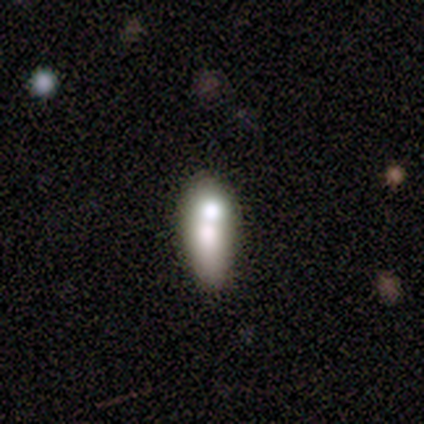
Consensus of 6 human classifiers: smooth 83%, featured or disk 17%, star or artifact 0%. Down the decision tree: how rounded — in between (80%); merging — merger (50%).